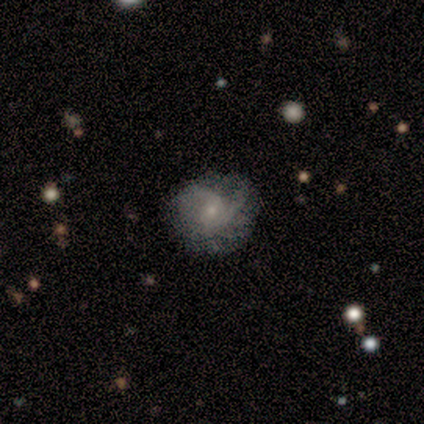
This appears to be a featured or disk galaxy (75%) with no bar (67%), 2 (67%) tight (100%) spiral arms (100%) and a small central bulge (100%). Merging: none (75%).